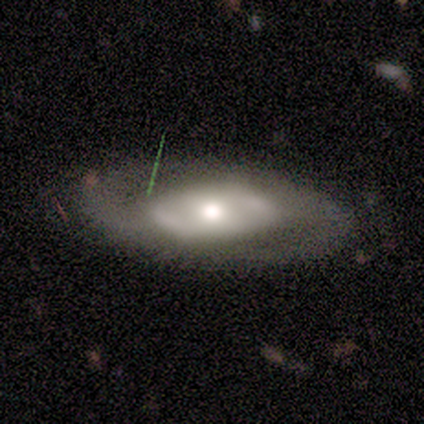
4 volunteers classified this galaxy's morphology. smooth-or-featured: smooth: 50% (tied) | featured or disk: 50% (tied) | star or artifact: 0%
  how-rounded: in between: 100% | round: 0% | cigar-shaped: 0%
  merging: none: 50% (tied) | major disturbance: 50% (tied) | minor disturbance: 0% | merger: 0%